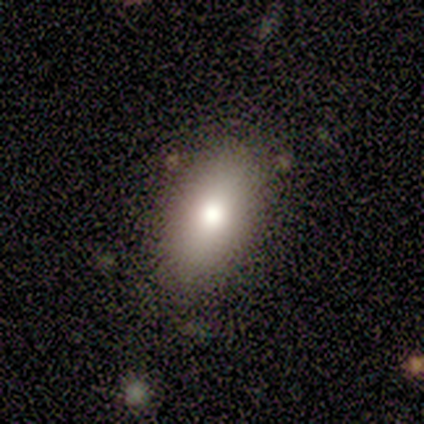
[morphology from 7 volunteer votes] smooth 86%, star or artifact 14%, featured or disk 0%. Down the decision tree: how rounded — in between (100%); merging — none (50%, tied with minor disturbance).